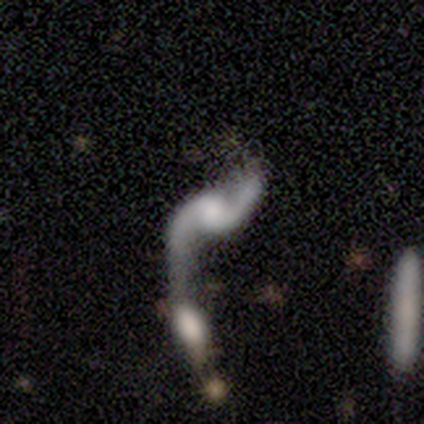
Volunteers were most divided on "bulge size": moderate: 35%, small: 27%, large: 19%, none: 19%, dominant: 1%. More confident: edge-on disk — no (91%); spiral arm count — 2 (91%); spiral winding — loose (90%); spiral arms — yes (89%); smooth or featured — featured or disk (86%); merging — merger (72%); bar — no (63%).